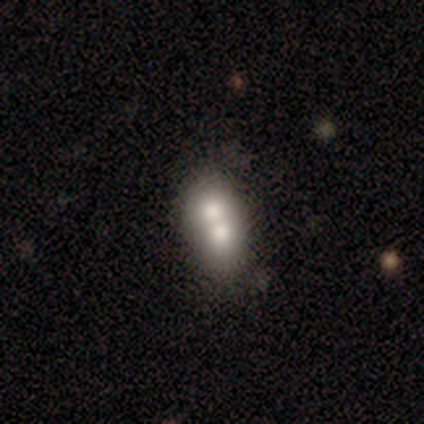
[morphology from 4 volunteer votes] smooth 75%, featured or disk 25%, star or artifact 0%. Down the decision tree: how rounded — in between (100%); merging — merger (75%).